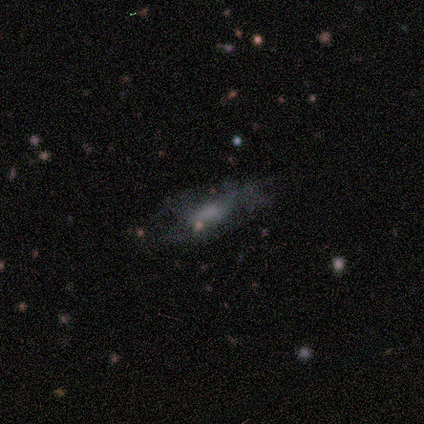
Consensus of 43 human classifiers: This is possibly a smooth galaxy (51%). How rounded: likely in between (77%). Merging: likely none (60%).